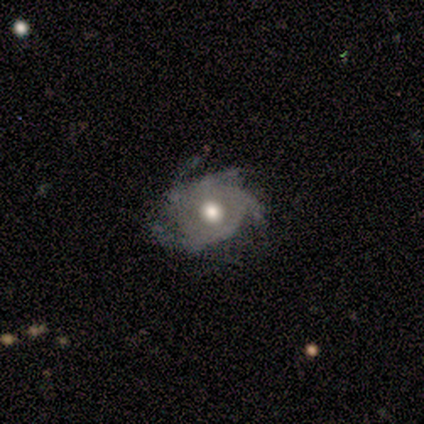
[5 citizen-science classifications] Morphology: type=featured or disk (100%); edge-on=no (100%); bar=strong (40%, tied with weak); spiral arms=yes (100%); winding=tight (80%); arm count=4 (80%); bulge=moderate (60%); merging=none (60%).